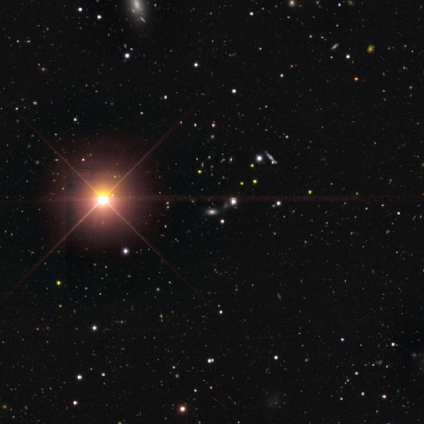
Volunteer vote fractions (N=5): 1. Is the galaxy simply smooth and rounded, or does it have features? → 100% star or artifact, 0% smooth, 0% featured or disk.